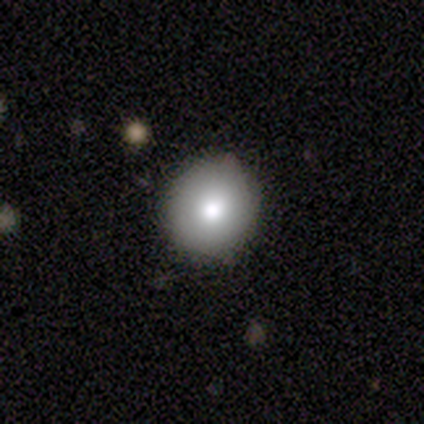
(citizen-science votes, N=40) Smooth or featured: smooth — 72% (featured or disk — 18%)
How rounded: round — 90% (in between — 7%)
Merging: none — 86% (minor disturbance — 11%)